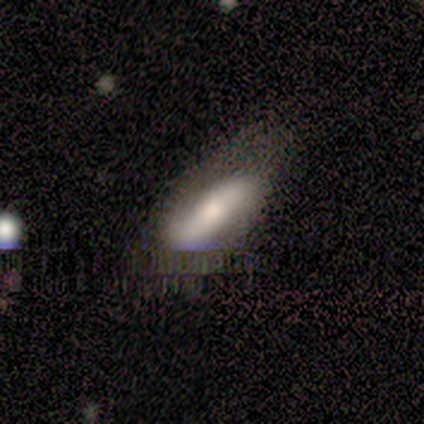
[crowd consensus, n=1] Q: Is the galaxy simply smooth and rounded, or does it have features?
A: featured or disk — 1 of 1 (100%).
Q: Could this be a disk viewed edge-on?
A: no — 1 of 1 (100%).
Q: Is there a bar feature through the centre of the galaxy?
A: weak — 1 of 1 (100%).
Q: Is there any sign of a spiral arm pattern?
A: no — 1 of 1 (100%).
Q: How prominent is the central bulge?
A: small — 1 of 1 (100%).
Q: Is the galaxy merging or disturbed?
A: none — 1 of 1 (100%).